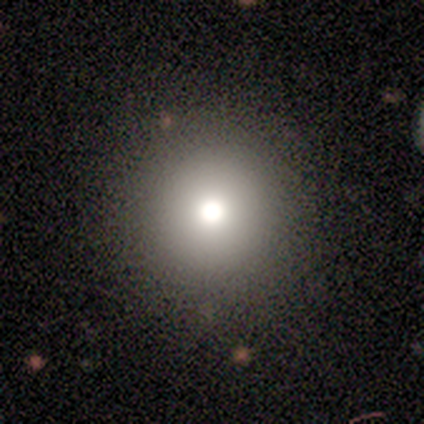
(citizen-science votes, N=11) smooth_or_featured: smooth (p=0.82) [alt: featured or disk p=0.18]
how_rounded: round (p=1.00)
merging: none (p=0.82) [alt: minor disturbance p=0.18]